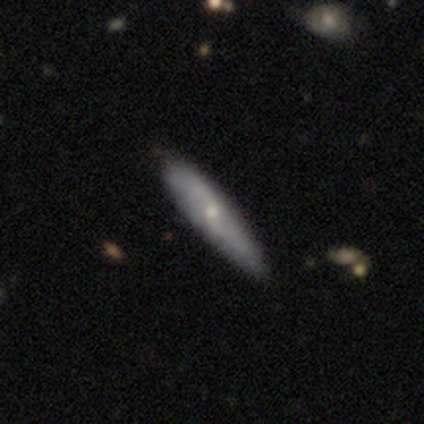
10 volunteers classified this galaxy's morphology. Overall: smooth (50%, tied with featured or disk). How rounded: in between (60%; cigar-shaped 40%). Merging: none (70%).